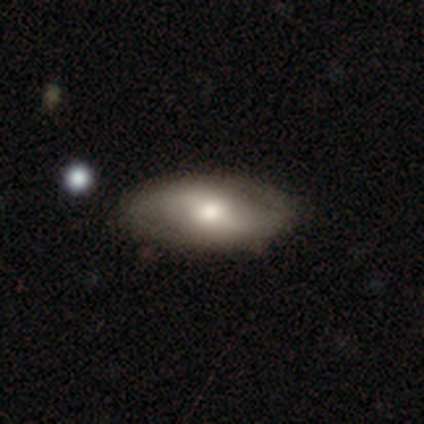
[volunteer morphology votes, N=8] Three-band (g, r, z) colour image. It shows a featured or disk galaxy (62%) with a weak bar (50%), 2 (100%) loose (67%) spiral arms (75%) and a moderate central bulge (75%). Merging: none (100%).